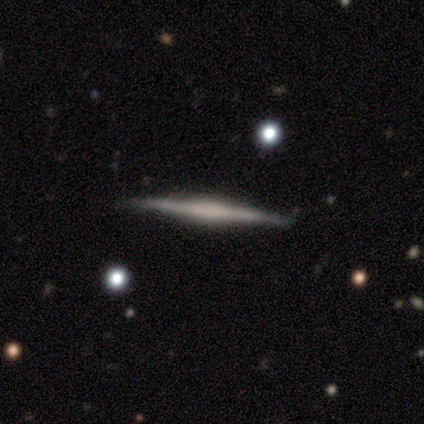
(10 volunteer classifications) smooth-or-featured: featured or disk: 60% | smooth: 40% | star or artifact: 0%
  disk-edge-on: yes: 100% | no: 0%
    edge-on-bulge: none: 50% | boxy: 33% | rounded: 17%
  merging: none: 100% | minor disturbance: 0% | major disturbance: 0% | merger: 0%